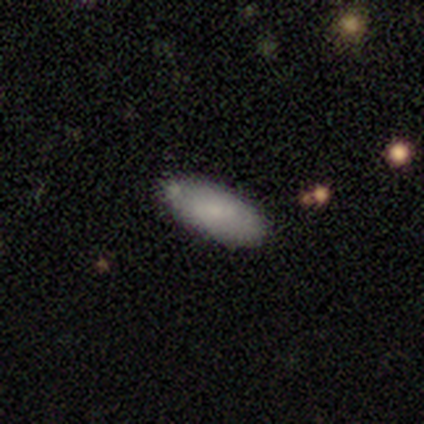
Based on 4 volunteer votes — Consensus on every question: smooth or featured — smooth (100%); how rounded — in between (100%); merging — none (100%).